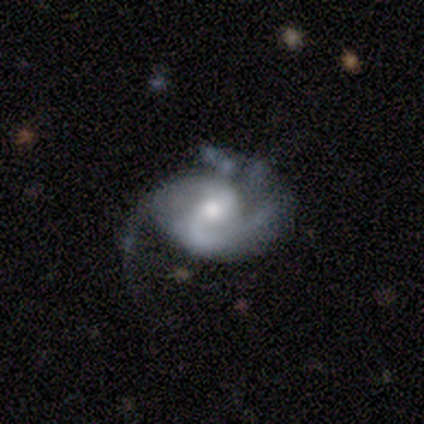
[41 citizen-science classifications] smooth-or-featured: featured or disk: 80% | smooth: 15% | star or artifact: 5%
  disk-edge-on: no: 100% | yes: 0%
    bar: no: 45% | weak: 30% | strong: 24%
    has-spiral-arms: yes: 91% | no: 9%
      spiral-winding: medium: 57% | tight: 30% | loose: 13%
      spiral-arm-count: 2: 87% | 3: 7% | 4: 3% | can't tell: 3% | 1: 0% | more than 4: 0%
    bulge-size: moderate: 73% | large: 21% | small: 6% | dominant: 0% | none: 0%
  merging: major disturbance: 38% | none: 36% | minor disturbance: 18% | merger: 8%